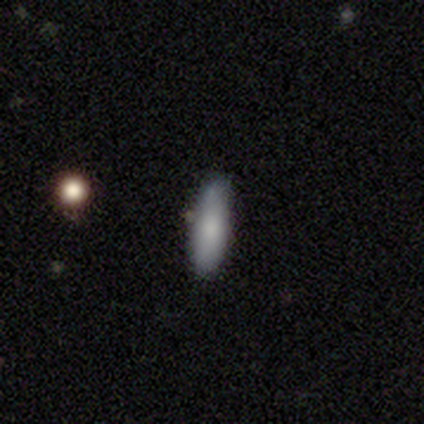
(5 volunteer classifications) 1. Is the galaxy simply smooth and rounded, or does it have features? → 80% smooth, 20% featured or disk, 0% star or artifact.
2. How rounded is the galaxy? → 50% in between (tied), 50% cigar-shaped (tied), 0% round.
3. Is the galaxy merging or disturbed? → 80% none, 20% merger, 0% minor disturbance, 0% major disturbance.